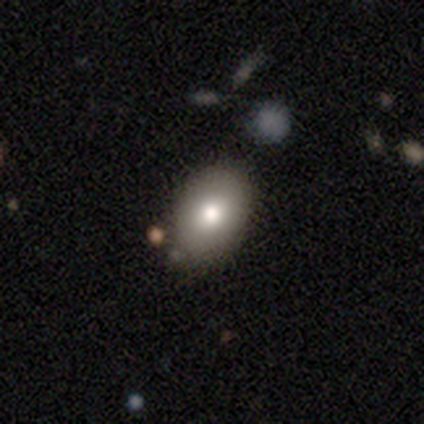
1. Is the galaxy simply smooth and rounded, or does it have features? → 100% smooth, 0% featured or disk, 0% star or artifact.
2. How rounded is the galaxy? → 100% in between, 0% round, 0% cigar-shaped.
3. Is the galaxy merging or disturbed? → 80% none, 20% minor disturbance, 0% major disturbance, 0% merger.